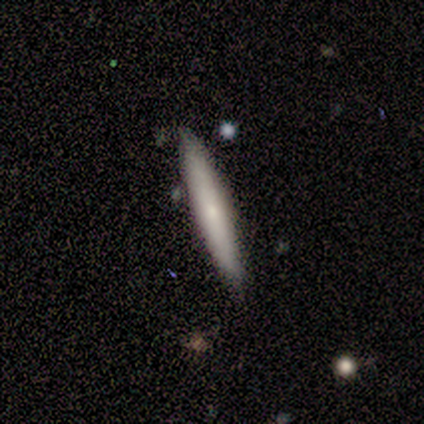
smooth 80%, featured or disk 20%, star or artifact 0%. Down the decision tree: how rounded — cigar-shaped (100%); merging — none (80%).